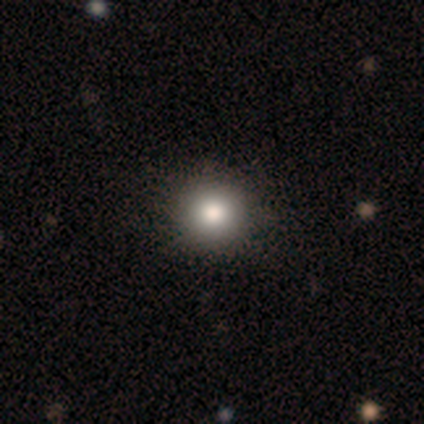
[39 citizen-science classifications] Volunteers were most divided on "merging": none: 64%, minor disturbance: 8%, merger: 3%, major disturbance: 0%. More confident: how rounded — round (97%); smooth or featured — smooth (87%).